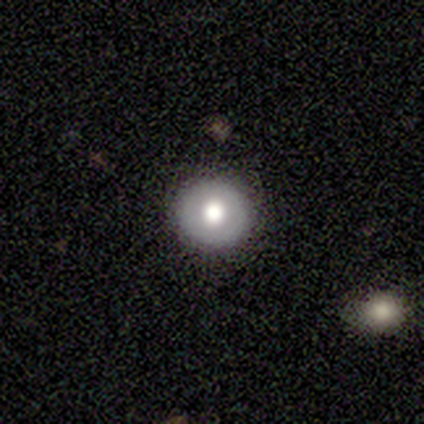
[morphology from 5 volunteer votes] A smooth galaxy with no disk features (80%) that is round (100%).

Vote fractions:
- Smooth or featured? smooth: 80% / star or artifact: 20% / featured or disk: 0%
- How rounded? round: 100% / in between: 0% / cigar-shaped: 0%
- Merging? none: 100% / minor disturbance: 0% / major disturbance: 0% / merger: 0%